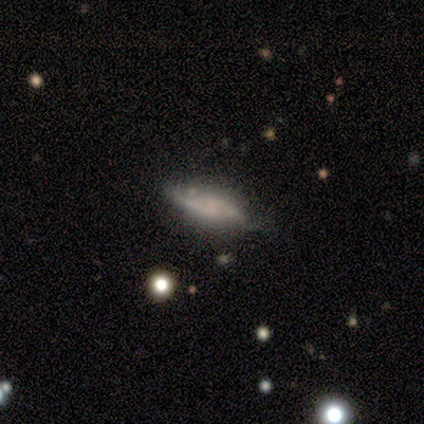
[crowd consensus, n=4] smooth_or_featured: smooth (p=0.50) [tied with: featured or disk p=0.50]
how_rounded: in between (p=0.50) [tied with: cigar-shaped p=0.50]
merging: minor disturbance (p=0.75) [alt: none p=0.25]